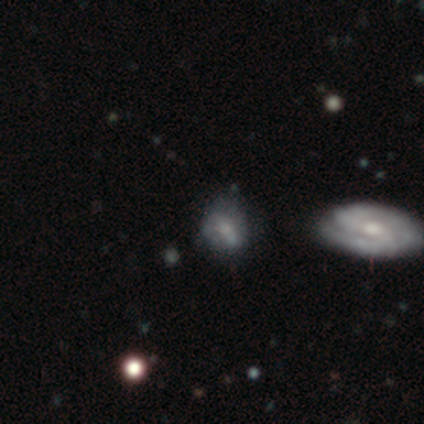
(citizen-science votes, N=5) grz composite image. It shows a smooth galaxy with no disk features (60%) that is round (67%). Merging: minor disturbance (67%).